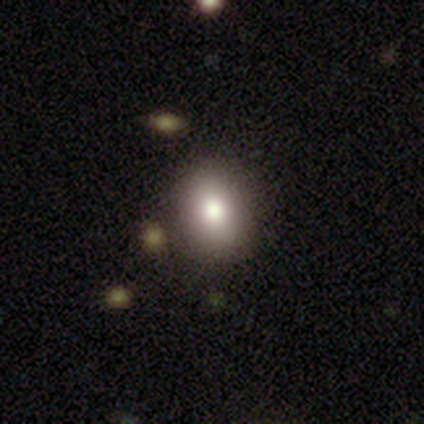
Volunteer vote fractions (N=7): Smooth or featured: smooth — 86% (star or artifact — 14%)
How rounded: round — 50% (tied with in between — 50%)
Merging: none — 67% (minor disturbance — 33%)